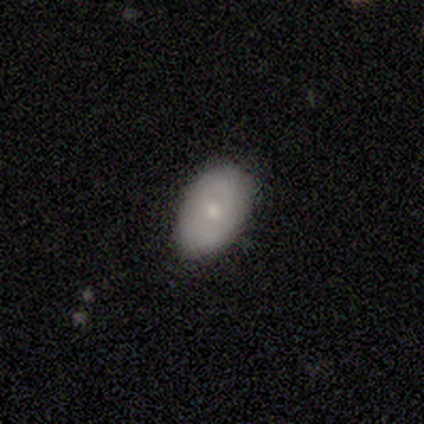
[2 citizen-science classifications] A smooth galaxy with no disk features (100%) that is in between round and cigar-shaped (100%). Merging: none (100%).